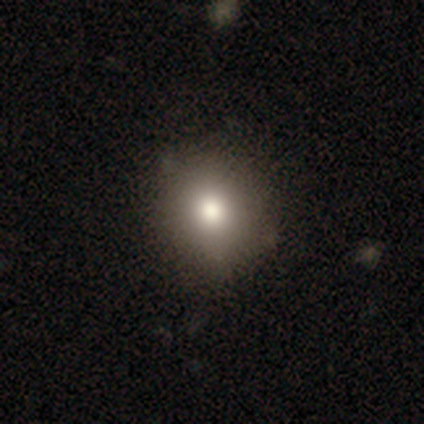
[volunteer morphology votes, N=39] A smooth galaxy with no disk features (85%) that is round (94%).

Vote fractions:
- Smooth or featured? smooth: 85% / featured or disk: 10% / star or artifact: 5%
- How rounded? round: 94% / in between: 6% / cigar-shaped: 0%
- Merging? none: 81% / minor disturbance: 14% / major disturbance: 5% / merger: 0%